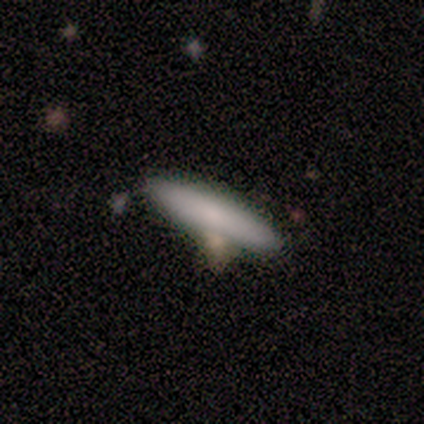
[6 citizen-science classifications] smooth 67%, featured or disk 33%, star or artifact 0%. Down the decision tree: how rounded — cigar-shaped (75%); merging — none (50%).